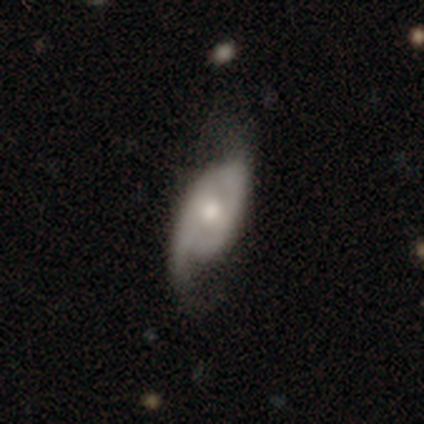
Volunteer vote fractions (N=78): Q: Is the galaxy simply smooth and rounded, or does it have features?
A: featured or disk — 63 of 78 (81%).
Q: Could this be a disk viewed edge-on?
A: no — 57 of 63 (90%).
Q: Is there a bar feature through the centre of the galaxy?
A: no — 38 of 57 (67%).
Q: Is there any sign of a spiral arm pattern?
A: yes — 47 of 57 (82%).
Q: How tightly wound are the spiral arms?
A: loose — 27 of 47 (57%).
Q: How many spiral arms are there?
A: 2 — 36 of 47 (77%).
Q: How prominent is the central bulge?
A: moderate — 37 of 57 (65%).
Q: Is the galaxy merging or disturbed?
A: none — 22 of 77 (29%).